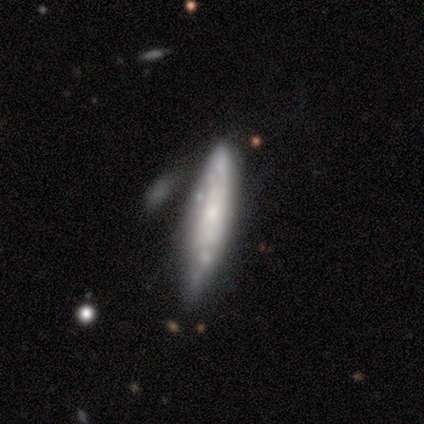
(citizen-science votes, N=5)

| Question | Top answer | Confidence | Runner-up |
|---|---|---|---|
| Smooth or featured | featured or disk | 100% | — |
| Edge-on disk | no | 60% | yes (40%) |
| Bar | no | 67% | weak (33%) |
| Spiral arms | yes | 67% | no (33%) |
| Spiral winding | medium | 100% | — |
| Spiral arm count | can't tell | 100% | — |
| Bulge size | small | 67% | moderate (33%) |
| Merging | none | 60% | minor disturbance (20%) |